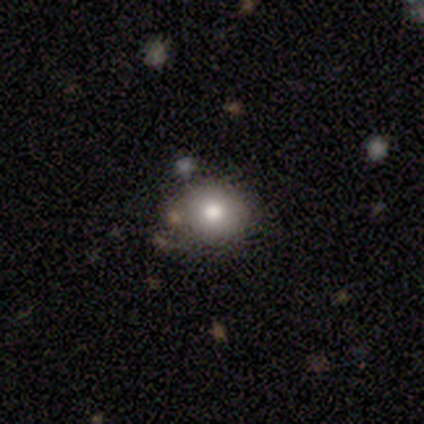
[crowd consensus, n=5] smooth_or_featured: smooth (p=1.00)
how_rounded: round (p=1.00)
merging: none (p=0.60) [alt: minor disturbance p=0.40]